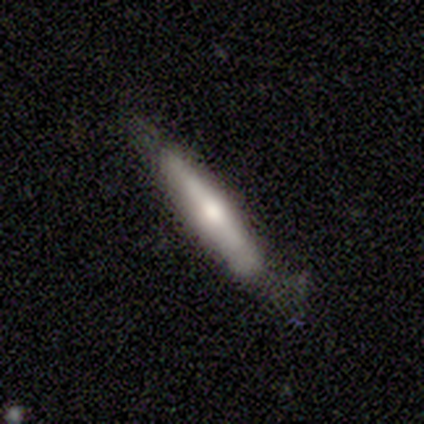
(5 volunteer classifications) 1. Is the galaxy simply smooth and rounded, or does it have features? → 80% smooth, 20% featured or disk, 0% star or artifact.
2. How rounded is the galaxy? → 75% cigar-shaped, 25% in between, 0% round.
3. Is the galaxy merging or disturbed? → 60% none, 40% minor disturbance, 0% major disturbance, 0% merger.